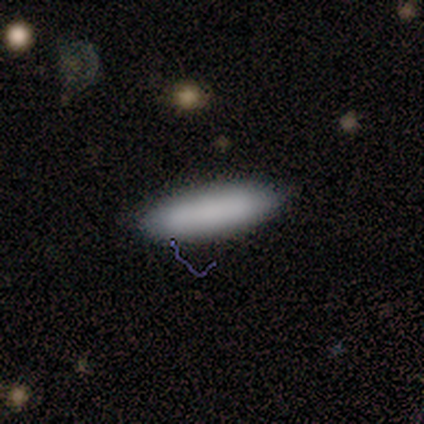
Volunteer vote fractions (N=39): A smooth galaxy with no disk features (72%) that is cigar-shaped (61%). Merging: none (88%).